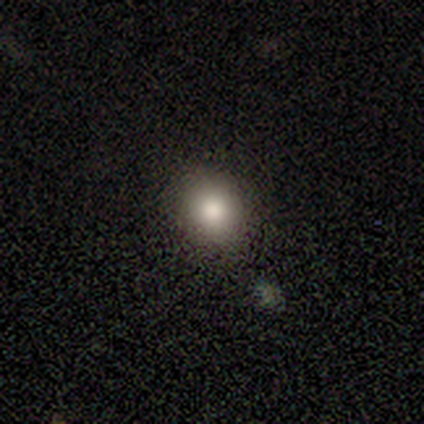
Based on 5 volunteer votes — A smooth galaxy with no disk features (100%) that is round (80%). Merging: none (100%).